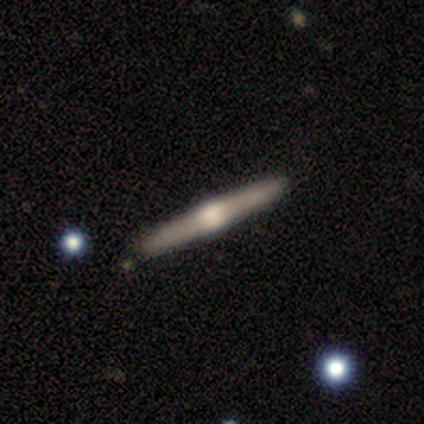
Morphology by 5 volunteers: A featured or disk galaxy (80%) viewed edge-on (100%) with a rounded central bulge (75%). Merging: none (80%).